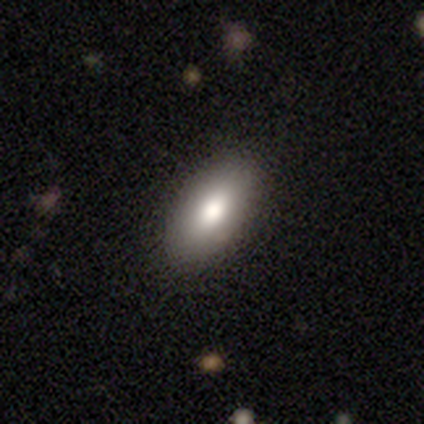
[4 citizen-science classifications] A smooth galaxy with no disk features (100%) that is in between round and cigar-shaped (100%). Merging: none (100%).